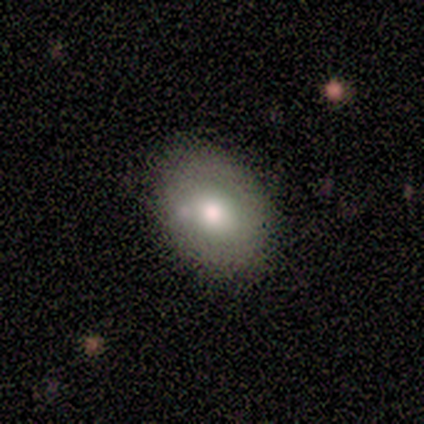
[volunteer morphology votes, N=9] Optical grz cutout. It shows a smooth galaxy with no disk features (67%) that is in between round and cigar-shaped (83%). Merging: none (89%).